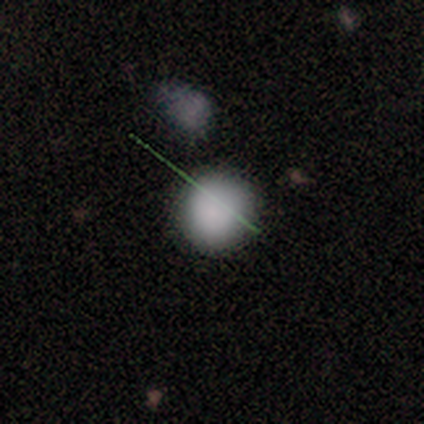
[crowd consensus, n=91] Volunteers were most divided on "smooth or featured": smooth: 76%, star or artifact: 16%, featured or disk: 8%. More confident: how rounded — round (93%); merging — none (84%).